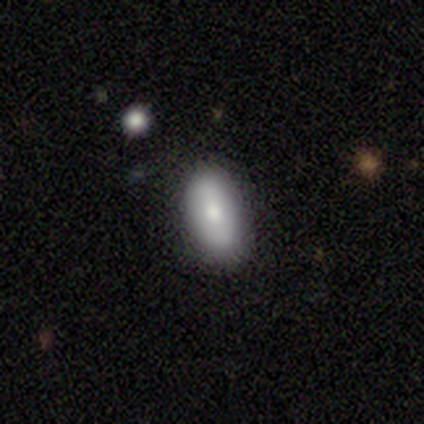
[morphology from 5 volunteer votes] type=smooth (80%); roundness=in between (75%); merging=none (60%).